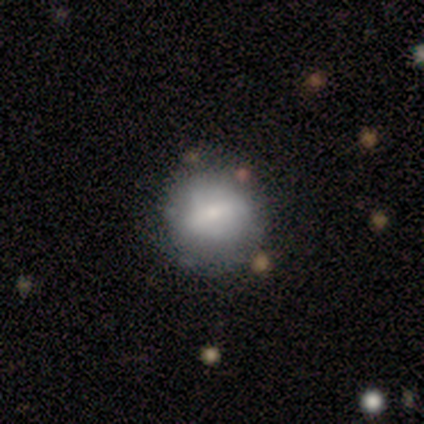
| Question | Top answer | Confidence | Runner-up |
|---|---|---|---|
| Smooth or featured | smooth | 60% | featured or disk (40%) |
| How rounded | round | 100% | — |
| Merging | none | 80% | minor disturbance (20%) |